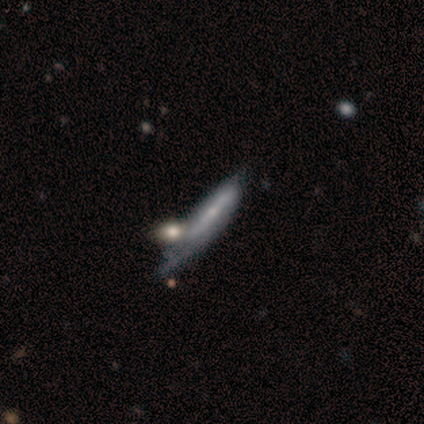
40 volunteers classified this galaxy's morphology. Smooth or featured? 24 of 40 (60%) said featured or disk. Edge-on disk? 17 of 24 (71%) said no. Bar? 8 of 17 (47%) said no. Spiral arms? 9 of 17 (53%) said yes. Spiral winding? 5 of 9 (56%) said tight. Spiral arm count? 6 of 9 (67%) said can't tell. Bulge size? 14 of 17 (82%) said small. Merging? 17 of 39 (44%) said minor disturbance.